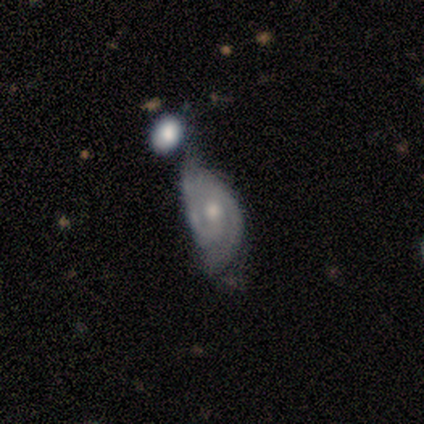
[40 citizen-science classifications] Smooth or featured?
  - featured or disk: 72% *
  - smooth: 25%
  - star or artifact: 2%
Edge-on disk?
  - no: 100% *
  - yes: 0%
Bar?
  - weak: 45% * (tied)
  - no: 45% * (tied)
  - strong: 10%
Spiral arms?
  - yes: 86% *
  - no: 14%
Spiral winding?
  - tight: 52% *
  - medium: 40%
  - loose: 8%
Spiral arm count?
  - 2: 92% *
  - 1: 4%
  - can't tell: 4%
  - 3: 0%
  - 4: 0%
  - more than 4: 0%
Bulge size?
  - moderate: 66% *
  - small: 28%
  - large: 7%
  - dominant: 0%
  - none: 0%
Merging?
  - merger: 38% *
  - minor disturbance: 23%
  - major disturbance: 21%
  - none: 18%